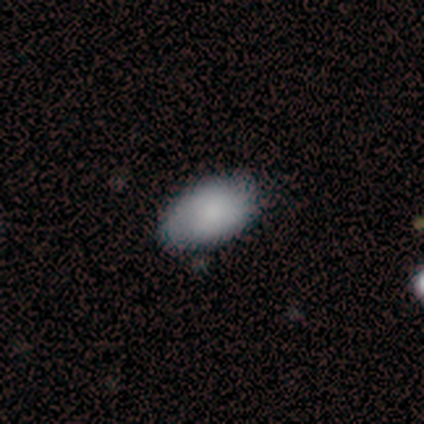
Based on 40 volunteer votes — A smooth galaxy with no disk features (98%) that is in between round and cigar-shaped (87%). Merging: none (79%).